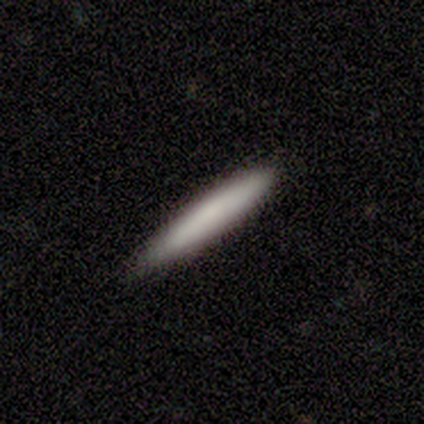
Smooth or featured? 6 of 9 (67%) said smooth. How rounded? 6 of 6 (100%) said cigar-shaped. Merging? 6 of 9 (67%) said none.